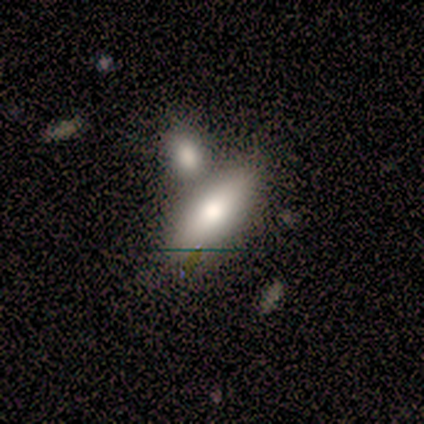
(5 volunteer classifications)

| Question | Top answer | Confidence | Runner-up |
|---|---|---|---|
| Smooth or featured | smooth | 100% | — |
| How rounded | in between | 100% | — |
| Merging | none | 40% | tied: merger (40%) |